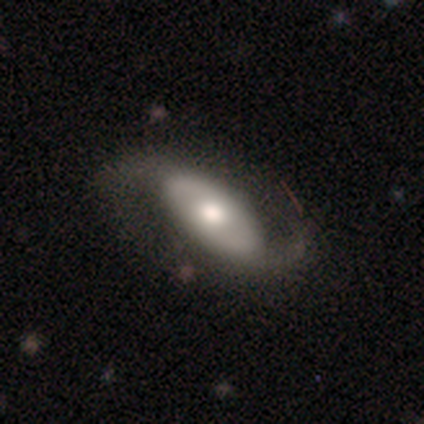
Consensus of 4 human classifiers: Smooth or featured? featured or disk (100%)
Edge-on disk? no (100%)
Bar? no (75%)
Spiral arms? yes (100%)
Spiral winding? loose (75%)
Spiral arm count? 2 (100%)
Bulge size? moderate (75%)
Merging? none (75%)